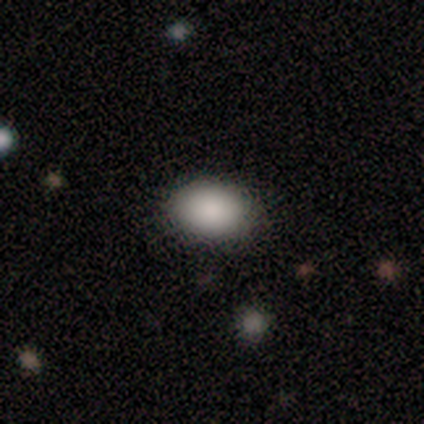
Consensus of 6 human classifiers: Overall: smooth (100%). How rounded: round (50%, tied with in between). Merging: none (100%).